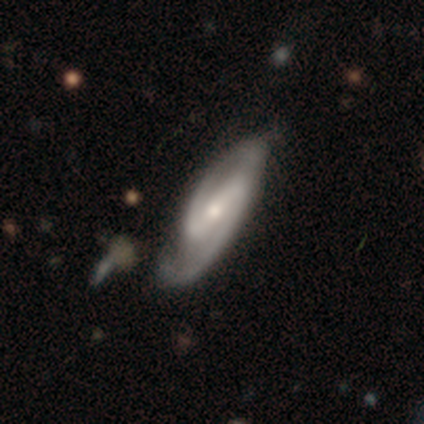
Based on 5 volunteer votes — A featured or disk galaxy (80%) with a strong bar (67%), 2 (100%) medium (67%) spiral arms (100%) and a moderate central bulge (67%).

Vote fractions:
- Smooth or featured? featured or disk: 80% / star or artifact: 20% / smooth: 0%
- Edge-on disk? no: 75% / yes: 25%
- Bar? strong: 67% / weak: 33% / no: 0%
- Spiral arms? yes: 100% / no: 0%
- Spiral winding? medium: 67% / tight: 33% / loose: 0%
- Spiral arm count? 2: 100% / 1: 0% / 3: 0% / 4: 0% / more than 4: 0% / can't tell: 0%
- Bulge size? moderate: 67% / small: 33% / dominant: 0% / large: 0% / none: 0%
- Merging? none: 75% / minor disturbance: 25% / major disturbance: 0% / merger: 0%